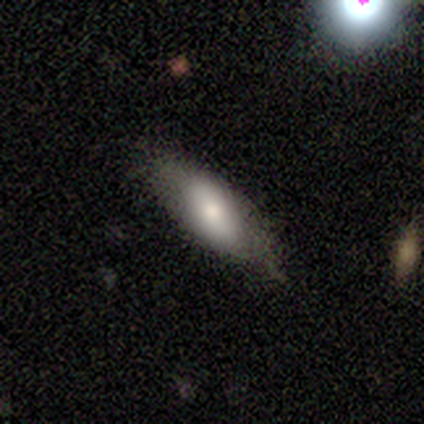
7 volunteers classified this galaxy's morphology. Smooth or featured: smooth — 71% (featured or disk — 29%)
How rounded: in between — 60% (cigar-shaped — 40%)
Merging: none — 57% (minor disturbance — 43%)